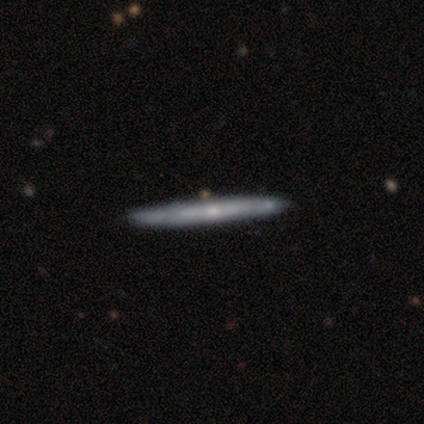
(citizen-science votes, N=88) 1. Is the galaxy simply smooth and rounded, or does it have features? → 66% featured or disk, 31% smooth, 3% star or artifact.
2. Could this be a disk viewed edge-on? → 95% yes, 5% no.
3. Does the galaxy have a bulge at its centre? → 67% none, 29% rounded, 4% boxy.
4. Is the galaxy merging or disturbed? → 85% none, 12% minor disturbance, 2% merger, 1% major disturbance.